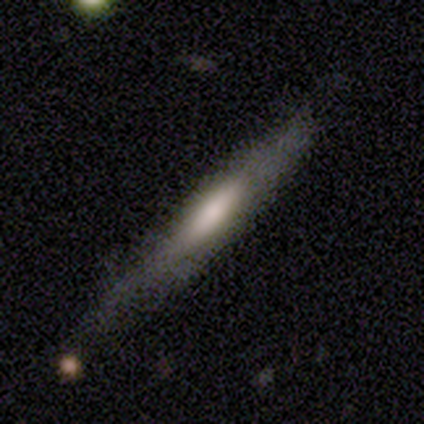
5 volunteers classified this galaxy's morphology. Volunteers were most divided on "merging": none: 60%, minor disturbance: 20%, major disturbance: 20%, merger: 0%. More confident: how rounded — cigar-shaped (100%); smooth or featured — smooth (80%).